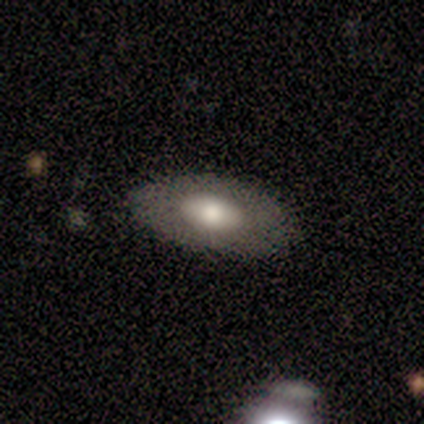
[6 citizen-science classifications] This appears to be a smooth galaxy with no disk features (67%) that is in between round and cigar-shaped (75%). Merging: none (67%).